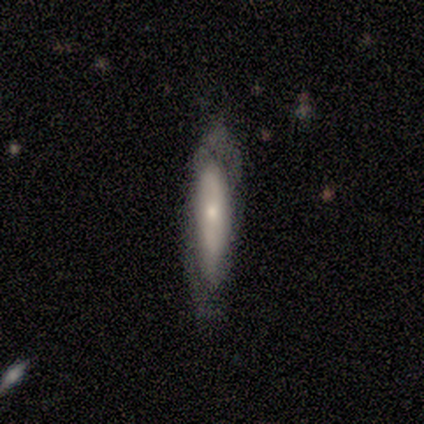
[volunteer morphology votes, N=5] Smooth or featured: featured or disk — 60% (smooth — 40%)
Edge-on disk: yes — 100%
Edge-on bulge: none — 67% (rounded — 33%)
Merging: none — 100%